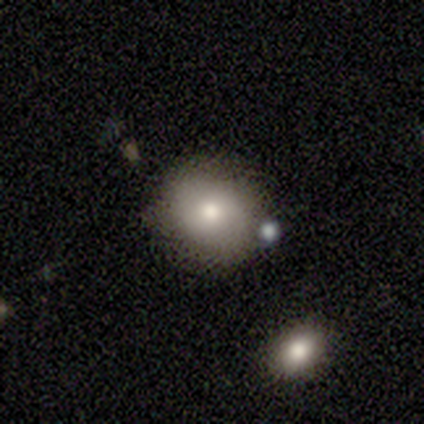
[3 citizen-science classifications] This is likely a smooth galaxy (67%). How rounded: clearly round (100%). Merging: likely none (67%).